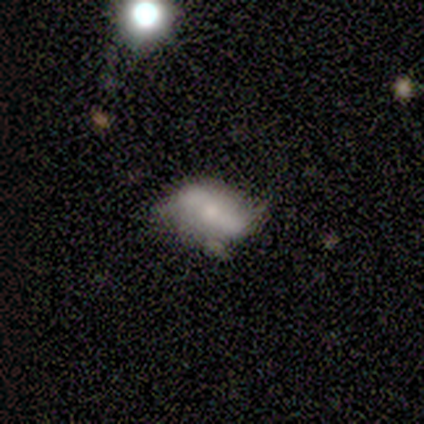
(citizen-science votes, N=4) Morphology: type=smooth (50%); roundness=round (50%, tied with in between); merging=minor disturbance (67%).